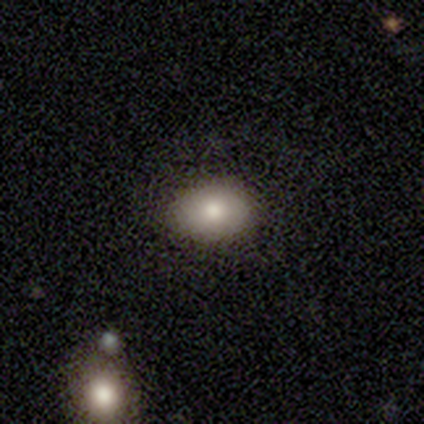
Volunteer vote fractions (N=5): Smooth or featured?
  - smooth: 80% *
  - star or artifact: 20%
  - featured or disk: 0%
How rounded?
  - in between: 100% *
  - round: 0%
  - cigar-shaped: 0%
Merging?
  - none: 100% *
  - minor disturbance: 0%
  - major disturbance: 0%
  - merger: 0%